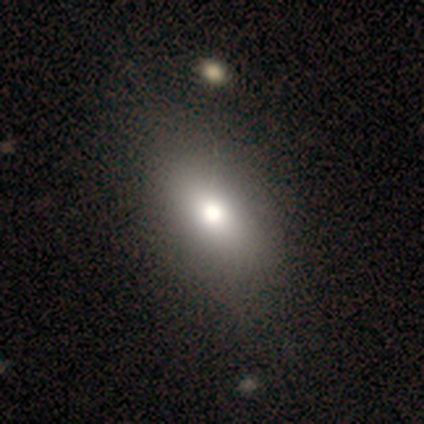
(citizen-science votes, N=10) Smooth or featured? 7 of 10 (70%) said smooth. How rounded? 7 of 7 (100%) said in between. Merging? 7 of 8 (88%) said none.